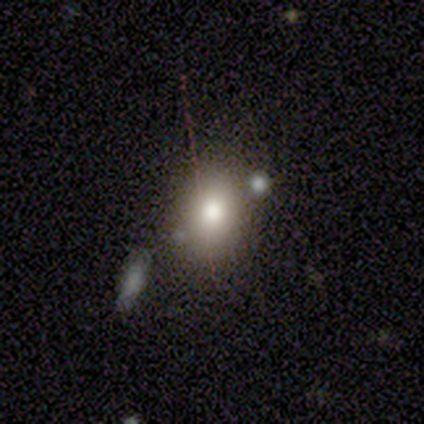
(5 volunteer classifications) Smooth or featured?
  - smooth: 60% *
  - featured or disk: 20%
  - star or artifact: 20%
How rounded?
  - round: 67% *
  - in between: 33%
  - cigar-shaped: 0%
Merging?
  - none: 75% *
  - minor disturbance: 25%
  - major disturbance: 0%
  - merger: 0%